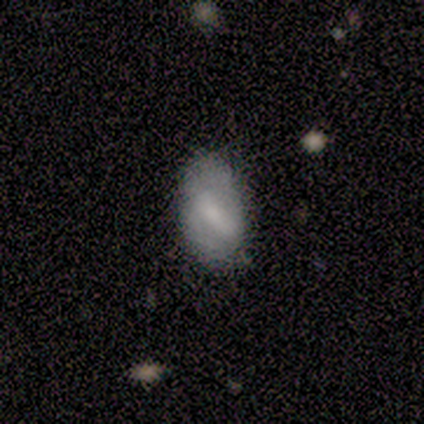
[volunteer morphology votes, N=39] Volunteers were most divided on "spiral arms" (2-way tie): yes: 50%, no: 50%. Remaining: edge-on disk — no (95%); spiral arm count — 2 (67%); merging — none (62%); bar — strong (56%); bulge size — small (56%); smooth or featured — featured or disk (49%); spiral winding — medium (44%).